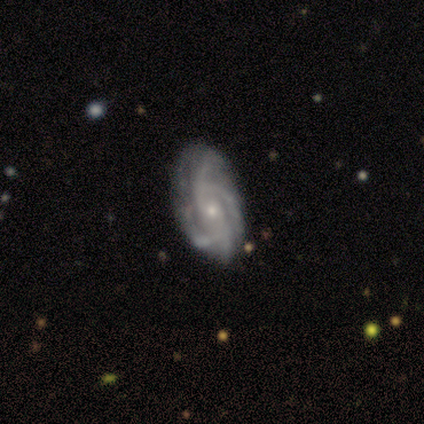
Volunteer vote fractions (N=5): A featured or disk galaxy (60%) with no bar (100%), 4 (67%) tight (100%) spiral arms (100%) and a small central bulge (67%).

Vote fractions:
- Smooth or featured? featured or disk: 60% / star or artifact: 40% / smooth: 0%
- Edge-on disk? no: 100% / yes: 0%
- Bar? no: 100% / strong: 0% / weak: 0%
- Spiral arms? yes: 100% / no: 0%
- Spiral winding? tight: 100% / medium: 0% / loose: 0%
- Spiral arm count? 4: 67% / can't tell: 33% / 1: 0% / 2: 0% / 3: 0% / more than 4: 0%
- Bulge size? small: 67% / moderate: 33% / dominant: 0% / large: 0% / none: 0%
- Merging? none: 100% / minor disturbance: 0% / major disturbance: 0% / merger: 0%